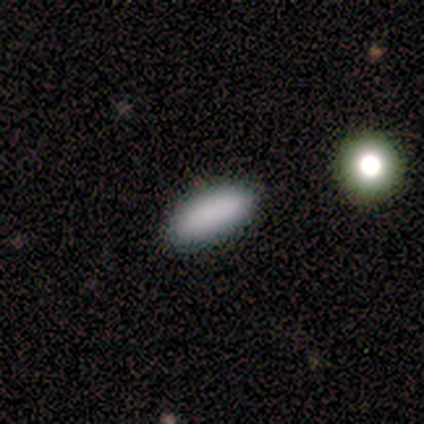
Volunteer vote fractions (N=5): Smooth or featured: smooth — 100%
How rounded: in between — 80% (cigar-shaped — 20%)
Merging: none — 100%